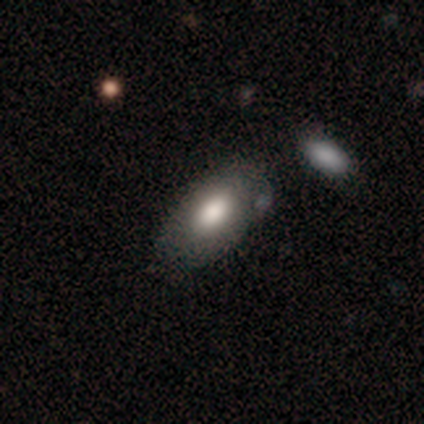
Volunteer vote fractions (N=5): Smooth or featured? 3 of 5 (60%) said smooth. How rounded? 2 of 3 (67%) said in between. Merging? 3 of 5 (60%) said none.